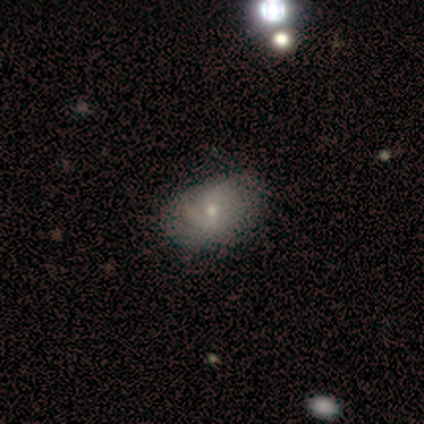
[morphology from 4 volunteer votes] smooth 50% (tied), featured or disk 50% (tied), star or artifact 0%. Down the decision tree: how rounded — in between (100%); merging — none (75%).